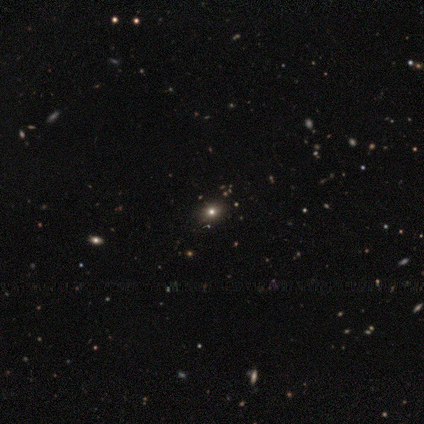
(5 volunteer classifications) Smooth or featured? star or artifact (100%)